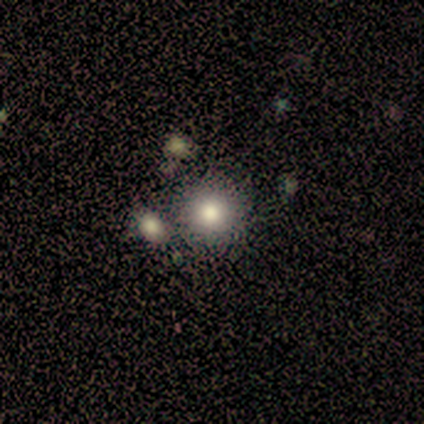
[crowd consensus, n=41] Smooth or featured: smooth — 80% (featured or disk — 12%)
How rounded: round — 97% (in between — 3%)
Merging: none — 74% (merger — 13%)